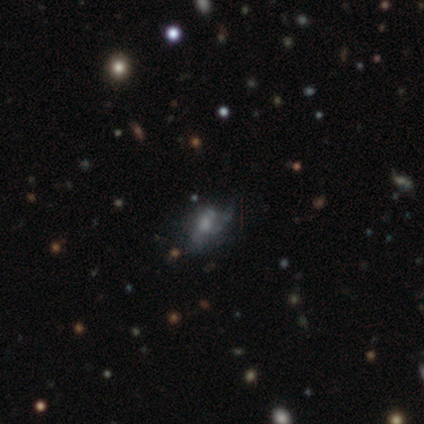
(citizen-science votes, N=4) Smooth or featured: featured or disk — 75% (star or artifact — 25%)
Edge-on disk: no — 100%
Bar: no — 67% (weak — 33%)
Spiral arms: no — 67% (yes — 33%)
Bulge size: large — 33% (tied with moderate — 33%; small — 33%)
Merging: major disturbance — 67% (none — 33%)